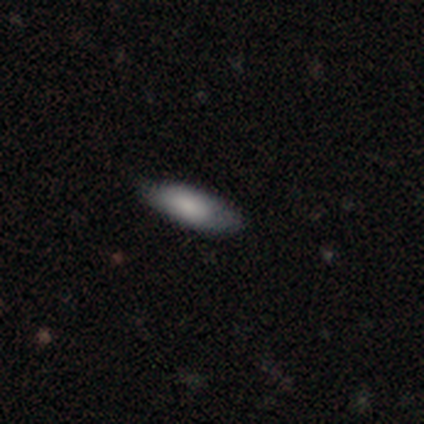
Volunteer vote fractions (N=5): A smooth galaxy with no disk features (80%) that is in between round and cigar-shaped (50%, tied with cigar-shaped). Merging: none (80%).